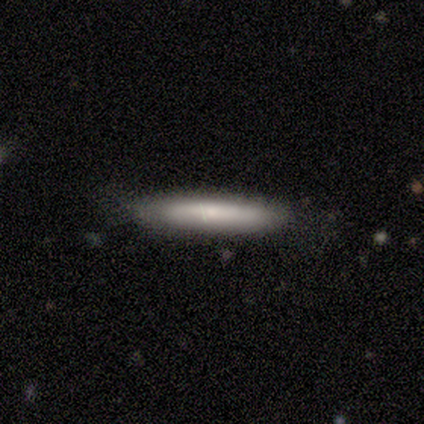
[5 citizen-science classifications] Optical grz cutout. It shows a smooth galaxy with no disk features (80%) that is cigar-shaped (100%). Merging: none (80%).